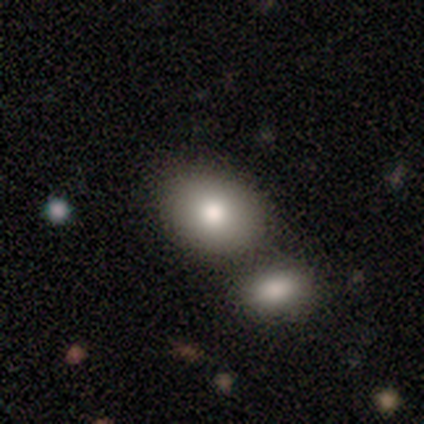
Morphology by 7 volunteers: Smooth or featured?
  - smooth: 100% *
  - featured or disk: 0%
  - star or artifact: 0%
How rounded?
  - in between: 57% *
  - round: 43%
  - cigar-shaped: 0%
Merging?
  - none: 57% *
  - merger: 29%
  - major disturbance: 14%
  - minor disturbance: 0%